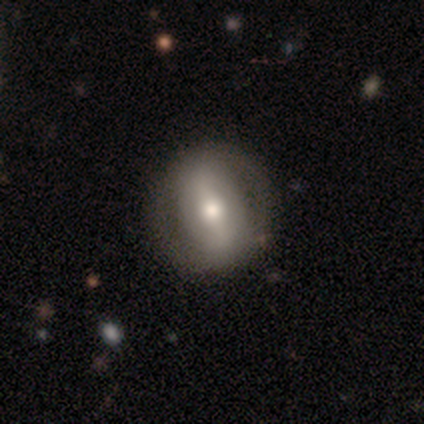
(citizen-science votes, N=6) Smooth or featured? featured or disk (67%)
Edge-on disk? no (100%)
Bar? strong (100%)
Spiral arms? yes (50%, tied with no)
Spiral winding? tight (50%, tied with medium)
Spiral arm count? 2 (100%)
Bulge size? moderate (100%)
Merging? none (100%)